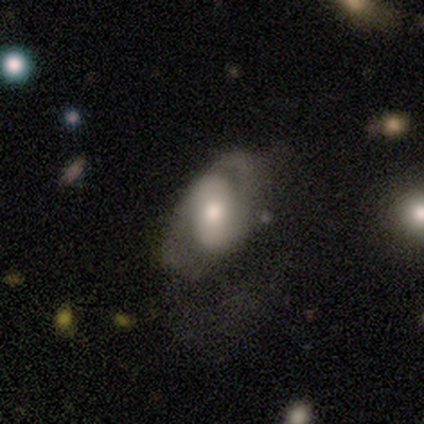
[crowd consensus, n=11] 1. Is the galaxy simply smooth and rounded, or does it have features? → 36% smooth (tied), 36% featured or disk (tied), 27% star or artifact.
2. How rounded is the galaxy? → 100% in between, 0% round, 0% cigar-shaped.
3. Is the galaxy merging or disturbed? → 50% none, 38% minor disturbance, 12% major disturbance, 0% merger.